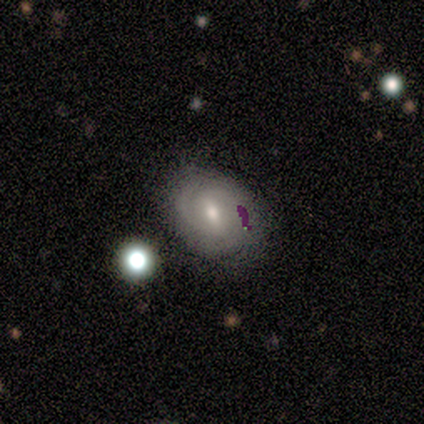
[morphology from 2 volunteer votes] Smooth or featured? featured or disk (50%, tied with star or artifact)
Edge-on disk? no (100%)
Bar? no (100%)
Spiral arms? no (100%)
Bulge size? small (100%)
Merging? none (100%)